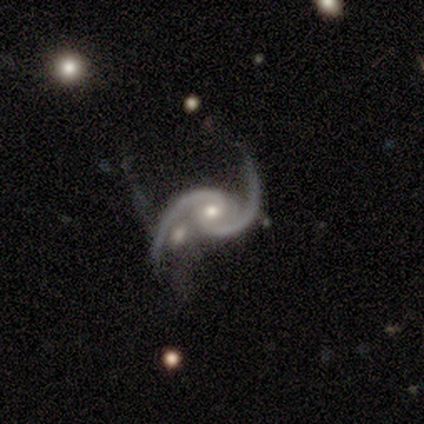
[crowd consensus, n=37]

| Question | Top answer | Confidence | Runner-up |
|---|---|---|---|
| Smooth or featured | featured or disk | 97% | star or artifact (3%) |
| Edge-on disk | no | 94% | yes (6%) |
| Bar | no | 65% | strong (18%) |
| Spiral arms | yes | 100% | — |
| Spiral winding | medium | 47% | loose (35%) |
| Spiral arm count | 2 | 94% | 3 (3%) |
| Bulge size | moderate | 56% | small (41%) |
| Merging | none | 42% | merger (33%) |